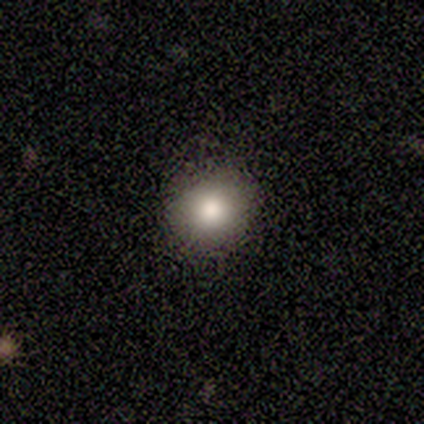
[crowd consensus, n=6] A smooth galaxy with no disk features (67%) that is round (100%). Merging: none (100%).